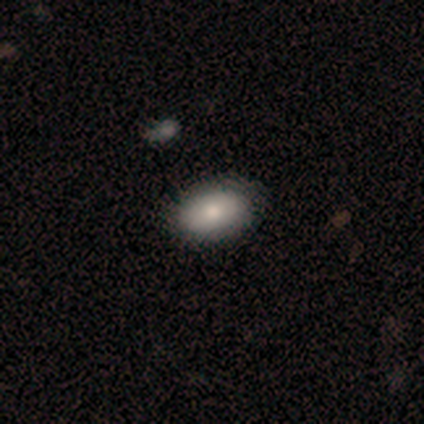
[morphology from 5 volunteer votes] A smooth galaxy with no disk features (100%) that is in between round and cigar-shaped (80%).

Vote fractions:
- Smooth or featured? smooth: 100% / featured or disk: 0% / star or artifact: 0%
- How rounded? in between: 80% / round: 20% / cigar-shaped: 0%
- Merging? none: 100% / minor disturbance: 0% / major disturbance: 0% / merger: 0%